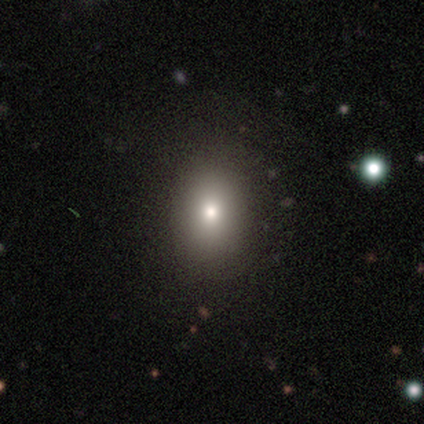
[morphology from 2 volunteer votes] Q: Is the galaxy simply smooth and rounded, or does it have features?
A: smooth — 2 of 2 (100%).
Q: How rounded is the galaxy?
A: round — 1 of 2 (50%, tied with in between).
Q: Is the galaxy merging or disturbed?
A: none — 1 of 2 (50%, tied with minor disturbance).